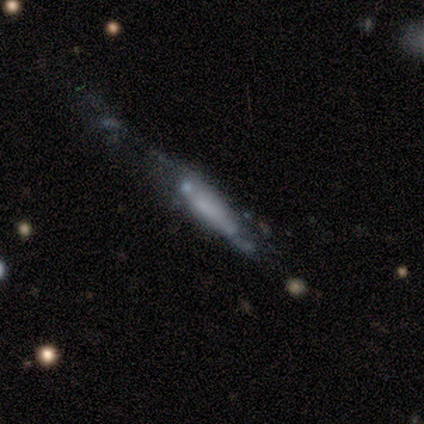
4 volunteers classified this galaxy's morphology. This appears to be a featured or disk galaxy (75%) viewed edge-on (67%) with a boxy central bulge (50%, tied with none). Merging: minor disturbance (50%).